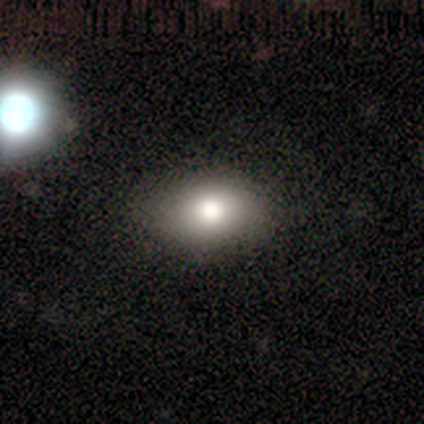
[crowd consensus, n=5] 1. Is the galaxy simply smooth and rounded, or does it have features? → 100% smooth, 0% featured or disk, 0% star or artifact.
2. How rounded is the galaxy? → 80% in between, 20% round, 0% cigar-shaped.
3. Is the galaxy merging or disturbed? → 100% none, 0% minor disturbance, 0% major disturbance, 0% merger.